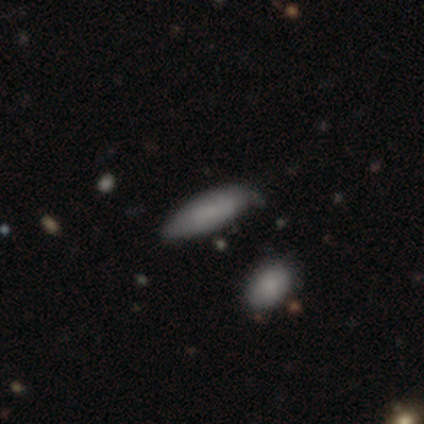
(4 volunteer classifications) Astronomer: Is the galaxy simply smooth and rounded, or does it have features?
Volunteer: smooth — 100%.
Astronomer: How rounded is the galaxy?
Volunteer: in between — 50%, tied with cigar-shaped at 50%.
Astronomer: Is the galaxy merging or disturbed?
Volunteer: none — 75%.